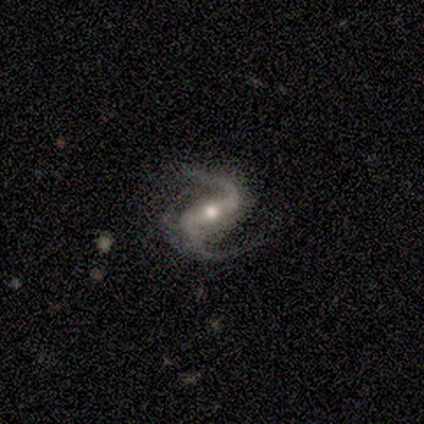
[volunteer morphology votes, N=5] Smooth or featured? featured or disk (100%)
Edge-on disk? no (100%)
Bar? strong (60%)
Spiral arms? yes (100%)
Spiral winding? medium (60%)
Spiral arm count? 2 (100%)
Bulge size? moderate (80%)
Merging? none (60%)